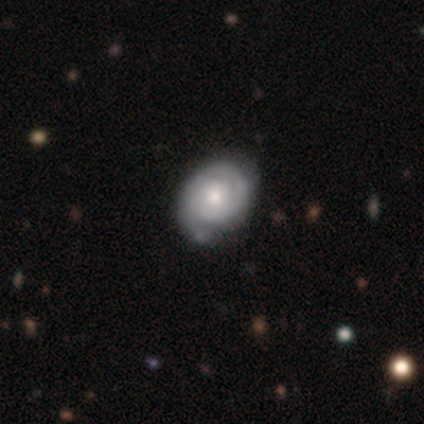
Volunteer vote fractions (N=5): A featured or disk galaxy (100%) with no bar (60%), 1 (40%, tied with 2) tight (80%) spiral arms (100%) and a small central bulge (80%). Merging: none (60%).